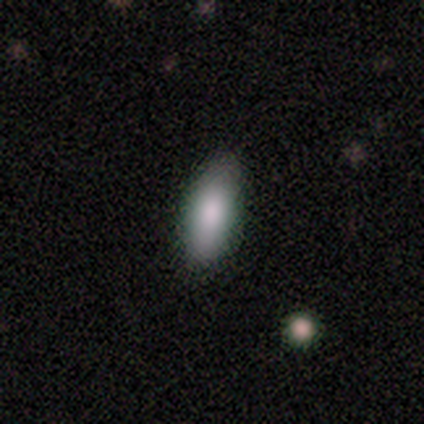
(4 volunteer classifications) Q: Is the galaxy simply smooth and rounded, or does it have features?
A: smooth — 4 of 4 (100%).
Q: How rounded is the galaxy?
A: in between — 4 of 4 (100%).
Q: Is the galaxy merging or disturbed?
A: none — 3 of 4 (75%).